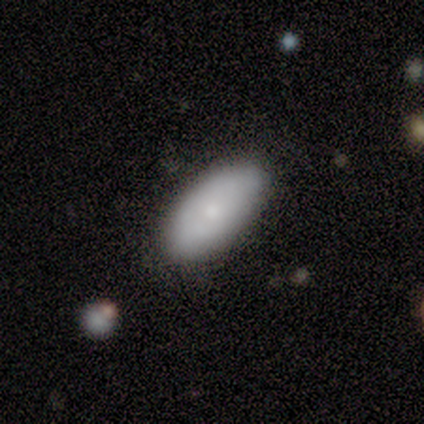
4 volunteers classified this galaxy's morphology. Smooth or featured? 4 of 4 (100%) said smooth. How rounded? 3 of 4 (75%) said in between. Merging? 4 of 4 (100%) said none.